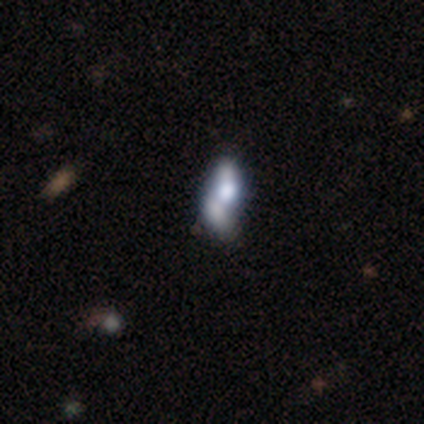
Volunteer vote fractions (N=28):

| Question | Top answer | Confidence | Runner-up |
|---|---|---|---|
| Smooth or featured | featured or disk | 46% | smooth (32%) |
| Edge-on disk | no | 92% | yes (8%) |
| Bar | no | 100% | — |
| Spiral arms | no | 92% | yes (8%) |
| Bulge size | large | 50% | moderate (25%) |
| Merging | merger | 50% | minor disturbance (18%) |